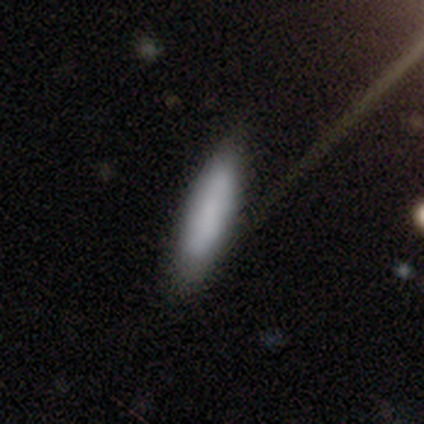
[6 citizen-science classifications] smooth-or-featured: smooth: 83% | star or artifact: 17% | featured or disk: 0%
  how-rounded: cigar-shaped: 100% | round: 0% | in between: 0%
  merging: none: 80% | minor disturbance: 20% | major disturbance: 0% | merger: 0%